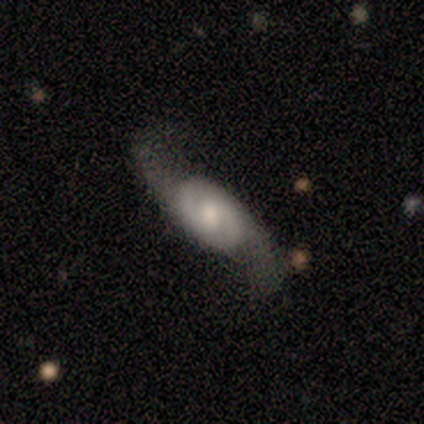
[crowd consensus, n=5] Smooth or featured? featured or disk (100%)
Edge-on disk? no (100%)
Bar? weak (40%, tied with no)
Spiral arms? yes (100%)
Spiral winding? loose (80%)
Spiral arm count? 2 (80%)
Bulge size? moderate (40%, tied with small)
Merging? none (80%)